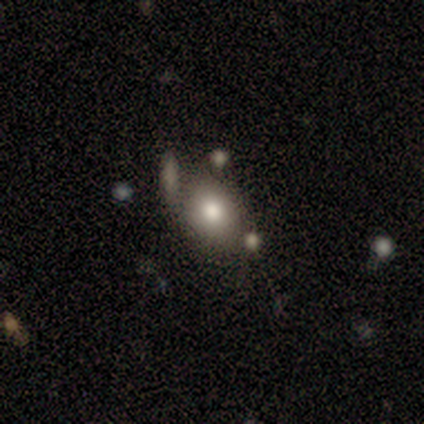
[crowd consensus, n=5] This appears to be a smooth galaxy with no disk features (80%) that is in between round and cigar-shaped (75%). Merging: none (80%).